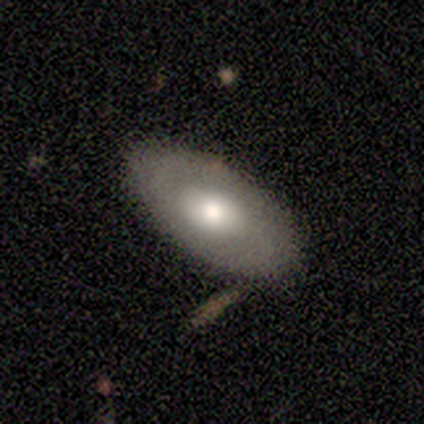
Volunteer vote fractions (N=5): Volunteers were most divided on "smooth or featured": smooth: 80%, featured or disk: 20%, star or artifact: 0%. More confident: how rounded — in between (100%); merging — none (80%).